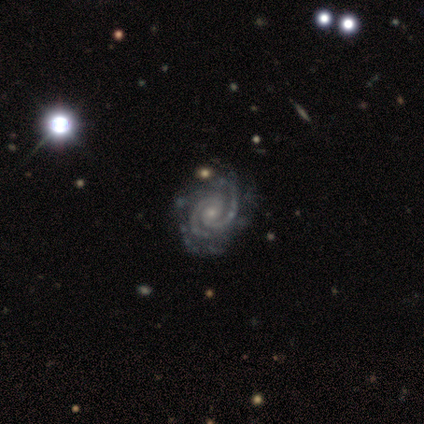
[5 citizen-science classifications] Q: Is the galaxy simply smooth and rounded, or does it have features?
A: featured or disk — 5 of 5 (100%).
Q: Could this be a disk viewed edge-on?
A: no — 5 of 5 (100%).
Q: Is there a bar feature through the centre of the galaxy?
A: no — 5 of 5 (100%).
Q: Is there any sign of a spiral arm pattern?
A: yes — 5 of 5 (100%).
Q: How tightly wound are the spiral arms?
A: medium — 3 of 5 (60%).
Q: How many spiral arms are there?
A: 2 — 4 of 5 (80%).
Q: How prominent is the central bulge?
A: small — 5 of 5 (100%).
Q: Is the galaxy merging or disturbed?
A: none — 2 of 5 (40%, tied with minor disturbance).